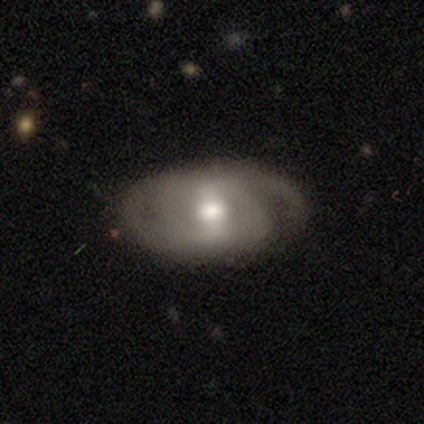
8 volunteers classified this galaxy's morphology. Q: Smooth or featured?
A: featured or disk (75%); runner-up: smooth (12%)
Q: Edge-on disk?
A: no (100%)
Q: Bar?
A: strong (67%); runner-up: weak (17%)
Q: Spiral arms?
A: yes (100%)
Q: Spiral winding?
A: tight (67%); runner-up: medium (17%)
Q: Spiral arm count?
A: 2 (67%); runner-up: 1 (17%)
Q: Bulge size?
A: moderate (83%); runner-up: large (17%)
Q: Merging?
A: none (86%); runner-up: minor disturbance (14%)